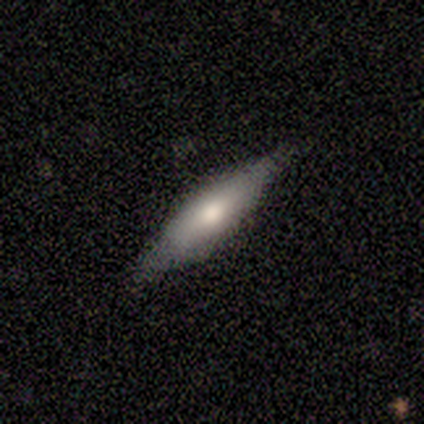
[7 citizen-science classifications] This is possibly a featured or disk galaxy (57%). It is clearly viewed edge-on (100%). Edge-on bulge: likely rounded (75%). Merging: clearly none (86%).